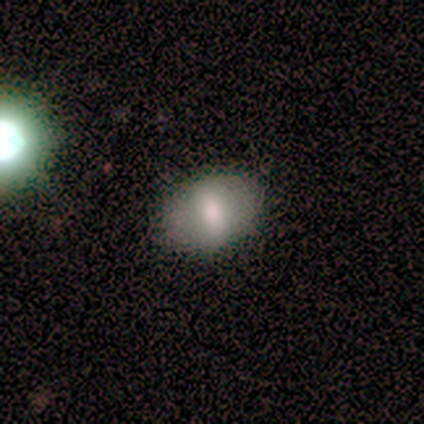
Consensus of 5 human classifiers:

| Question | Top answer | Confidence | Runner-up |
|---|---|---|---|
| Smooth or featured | smooth | 100% | — |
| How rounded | in between | 60% | round (40%) |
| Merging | none | 60% | merger (40%) |